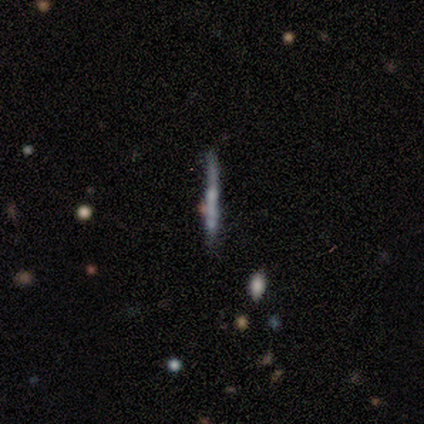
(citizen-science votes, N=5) Smooth or featured?
  - featured or disk: 80% *
  - smooth: 20%
  - star or artifact: 0%
Edge-on disk?
  - yes: 75% *
  - no: 25%
Edge-on bulge?
  - none: 100% *
  - boxy: 0%
  - rounded: 0%
Merging?
  - none: 60% *
  - major disturbance: 20%
  - merger: 20%
  - minor disturbance: 0%